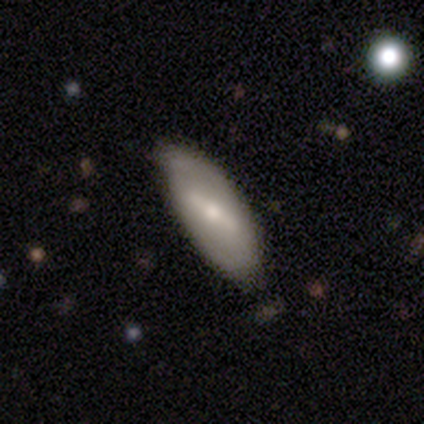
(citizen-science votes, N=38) This appears to be a featured or disk galaxy (63%) with a strong bar (53%), 2 (67%) tight (44%, tied with loose) spiral arms (53%) and a moderate central bulge (53%). Merging: none (74%).